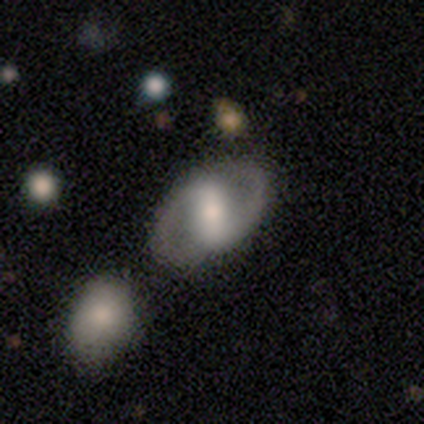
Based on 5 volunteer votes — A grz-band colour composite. It shows a featured or disk galaxy (80%) with a strong bar (50%, tied with weak), 2 (100%) tight (75%) spiral arms (100%) and a large central bulge (50%, tied with moderate). Merging: none (100%).